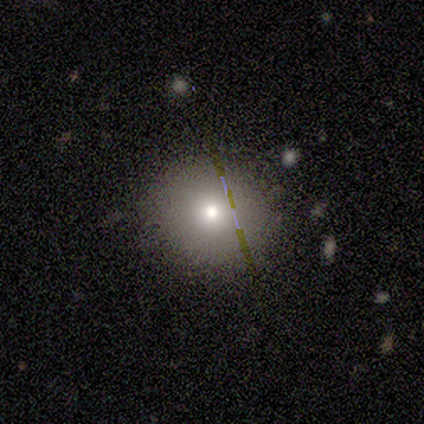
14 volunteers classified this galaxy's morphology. This appears to be a smooth galaxy with no disk features (57%) that is round (100%). Merging: none (100%).